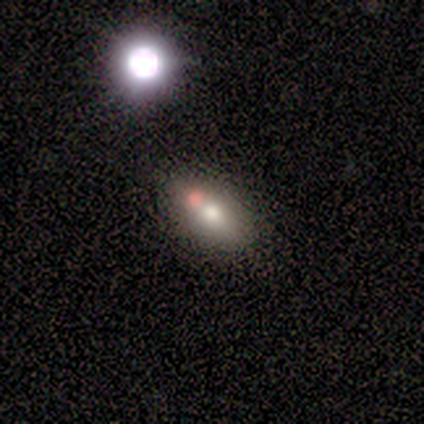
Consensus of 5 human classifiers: smooth 60%, featured or disk 20%, star or artifact 20%. Down the decision tree: how rounded — cigar-shaped (67%); merging — none (75%).